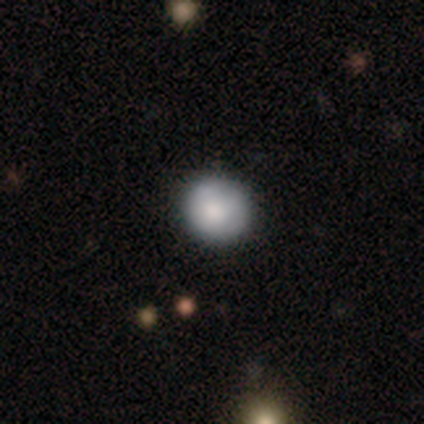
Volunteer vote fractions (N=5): Volunteers were most divided on "merging": none: 60%, minor disturbance: 40%, major disturbance: 0%, merger: 0%. More confident: how rounded — round (100%); smooth or featured — smooth (80%).